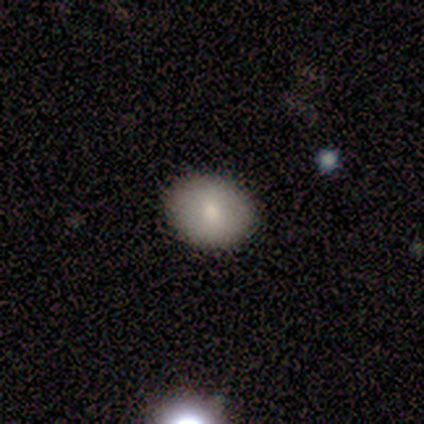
Smooth or featured? 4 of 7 (57%) said featured or disk. Edge-on disk? 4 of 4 (100%) said no. Bar? 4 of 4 (100%) said no. Spiral arms? 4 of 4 (100%) said no. Bulge size? 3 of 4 (75%) said small. Merging? 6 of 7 (86%) said none.